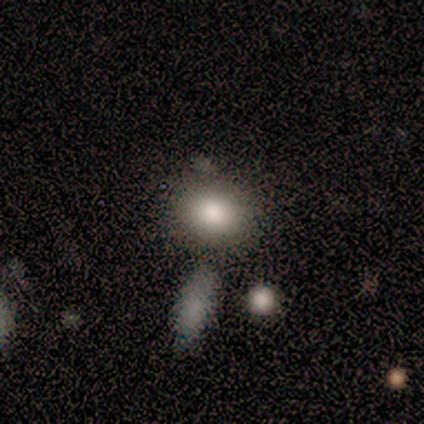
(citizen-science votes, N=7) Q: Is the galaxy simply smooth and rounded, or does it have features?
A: smooth — 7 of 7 (100%).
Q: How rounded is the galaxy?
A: round — 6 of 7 (86%).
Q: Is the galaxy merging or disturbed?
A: none — 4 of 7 (57%).